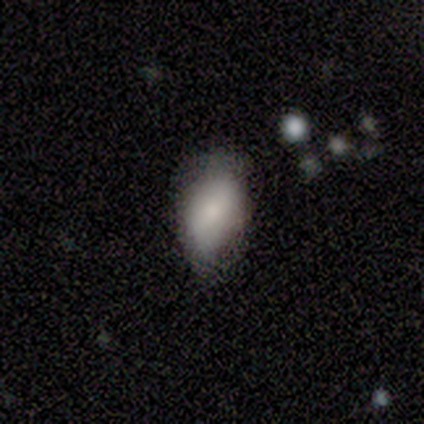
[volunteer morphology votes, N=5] This appears to be a smooth galaxy with no disk features (100%) that is in between round and cigar-shaped (100%). Merging: none (60%).